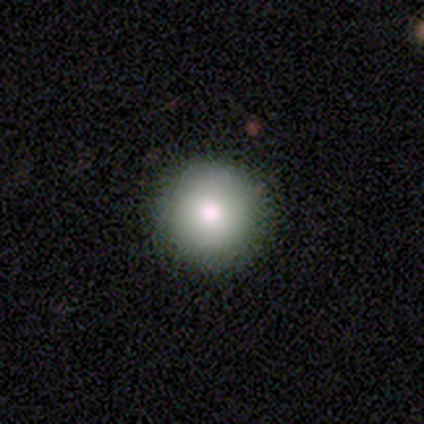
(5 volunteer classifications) smooth 100%, featured or disk 0%, star or artifact 0%. Down the decision tree: how rounded — round (100%); merging — none (100%).